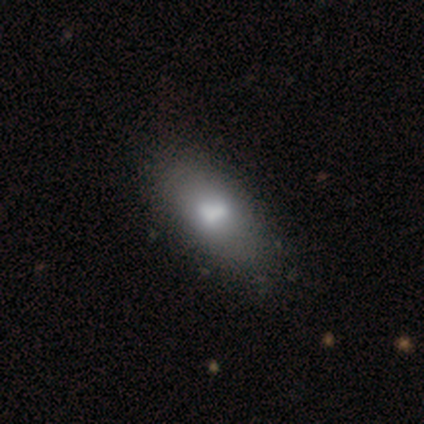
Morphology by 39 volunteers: Smooth or featured? smooth (74%)
How rounded? in between (86%)
Merging? none (65%)